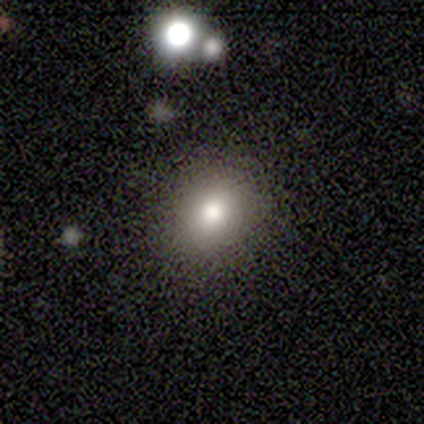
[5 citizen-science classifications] Volunteers were most divided on "how rounded": in between: 75%, round: 25%, cigar-shaped: 0%. More confident: merging — none (100%); smooth or featured — smooth (80%).